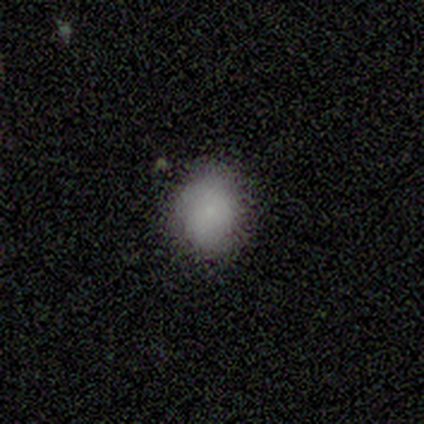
A smooth galaxy with no disk features (100%) that is round (80%). Merging: none (70%).